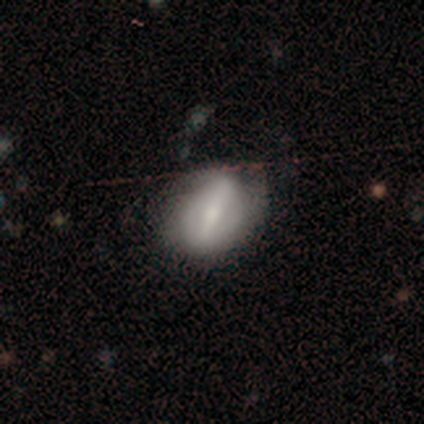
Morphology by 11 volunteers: Overall: featured or disk (55%; smooth 27%). Edge-on disk: no (100%). Bar: strong (83%). Spiral arms: yes (50%, tied with no). Spiral arm count: can't tell (67%; 2 33%). Spiral winding: tight (33%, tied with medium and loose). Bulge size: small (50%; moderate 33%). Merging: none (89%).